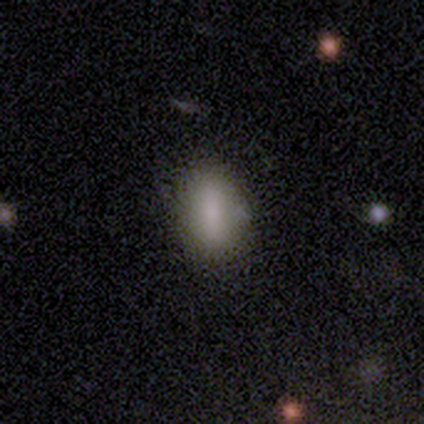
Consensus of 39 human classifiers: Overall: smooth (69%). How rounded: in between (74%). Merging: none (91%).